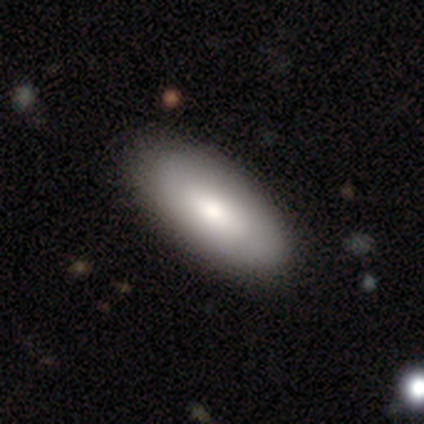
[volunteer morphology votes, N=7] smooth-or-featured: smooth: 71% | featured or disk: 29% | star or artifact: 0%
  how-rounded: in between: 80% | cigar-shaped: 20% | round: 0%
  merging: none: 71% | minor disturbance: 29% | major disturbance: 0% | merger: 0%